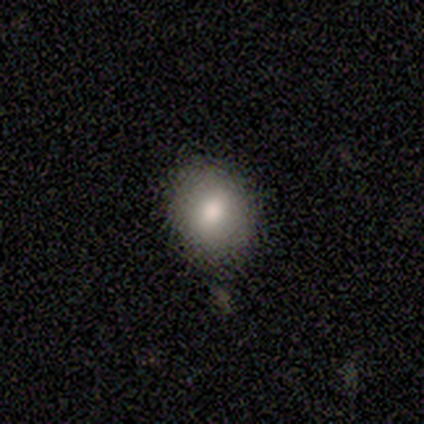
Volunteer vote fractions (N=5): Smooth or featured: smooth — 100%
How rounded: in between — 60% (round — 40%)
Merging: none — 80% (minor disturbance — 20%)